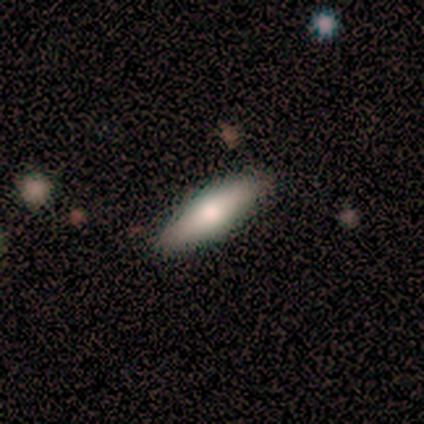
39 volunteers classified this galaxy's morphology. This appears to be a smooth galaxy with no disk features (59%) that is cigar-shaped (70%). Merging: none (81%).